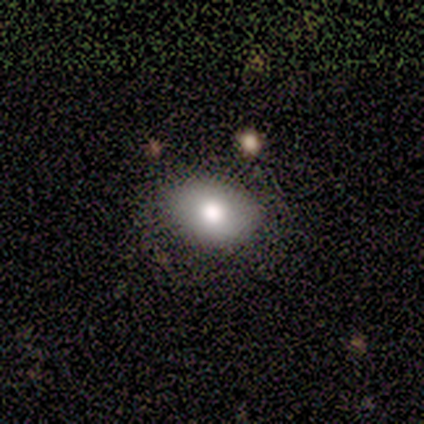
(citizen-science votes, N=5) Smooth or featured?
  - smooth: 100% *
  - featured or disk: 0%
  - star or artifact: 0%
How rounded?
  - in between: 80% *
  - round: 20%
  - cigar-shaped: 0%
Merging?
  - none: 80% *
  - minor disturbance: 20%
  - major disturbance: 0%
  - merger: 0%